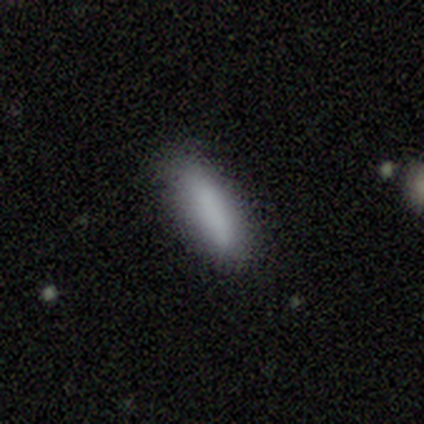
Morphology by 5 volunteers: type=smooth (80%); roundness=in between (50%, tied with cigar-shaped); merging=none (50%, tied with minor disturbance).